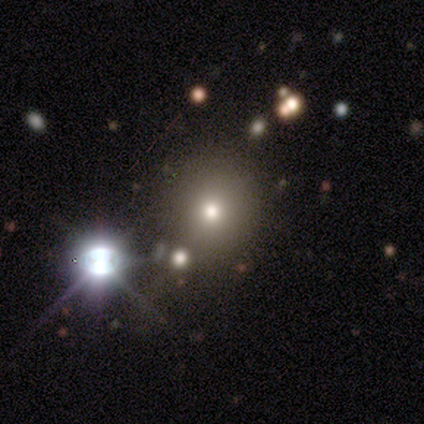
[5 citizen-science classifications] Morphology: type=star or artifact (80%).